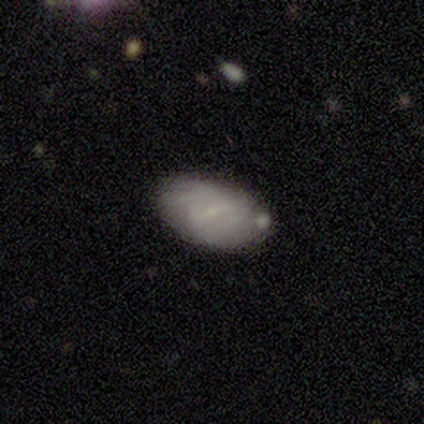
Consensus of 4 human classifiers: smooth-or-featured: featured or disk: 50% | smooth: 25% | star or artifact: 25%
  disk-edge-on: no: 100% | yes: 0%
    bar: strong: 50% (tied) | weak: 50% (tied) | no: 0%
    has-spiral-arms: yes: 50% (tied) | no: 50% (tied)
      spiral-winding: tight: 100% | medium: 0% | loose: 0%
      spiral-arm-count: 2: 100% | 1: 0% | 3: 0% | 4: 0% | more than 4: 0% | can't tell: 0%
    bulge-size: small: 100% | dominant: 0% | large: 0% | moderate: 0% | none: 0%
  merging: minor disturbance: 67% | none: 33% | major disturbance: 0% | merger: 0%